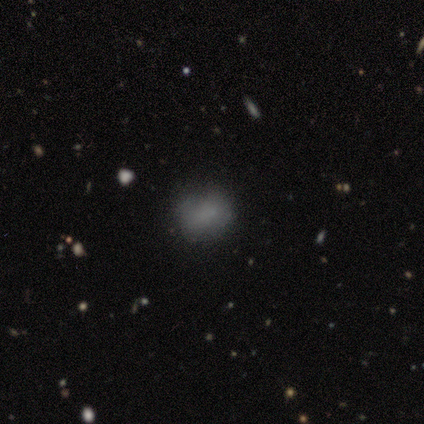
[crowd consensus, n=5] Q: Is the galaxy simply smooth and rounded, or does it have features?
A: smooth — 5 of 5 (100%).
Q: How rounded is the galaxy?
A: in between — 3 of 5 (60%).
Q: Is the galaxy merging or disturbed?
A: none — 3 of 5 (60%).